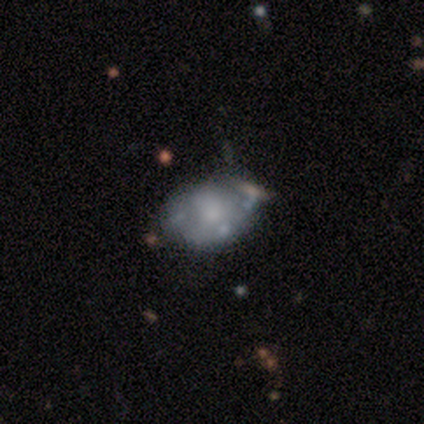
smooth 60%, featured or disk 40%, star or artifact 0%. Down the decision tree: how rounded — in between (67%); merging — none (60%).